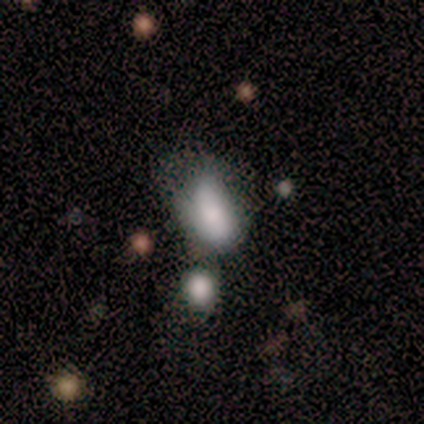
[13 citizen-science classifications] Smooth or featured: smooth — 85% (featured or disk — 15%)
How rounded: in between — 100%
Merging: minor disturbance — 38% (major disturbance — 23%)